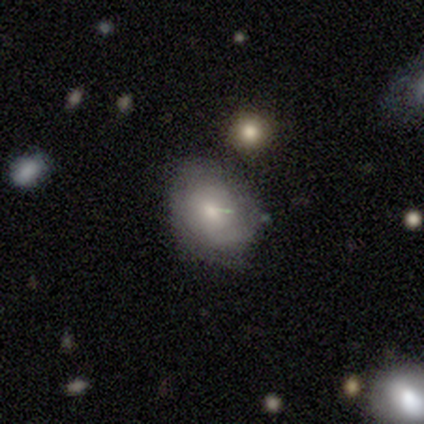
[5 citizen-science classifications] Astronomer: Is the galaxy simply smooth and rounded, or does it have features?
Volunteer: smooth — 60% (runner-up: featured or disk, 40%).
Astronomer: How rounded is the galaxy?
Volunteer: in between — 67%.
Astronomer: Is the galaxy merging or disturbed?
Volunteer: none — 60% (runner-up: minor disturbance, 40%).